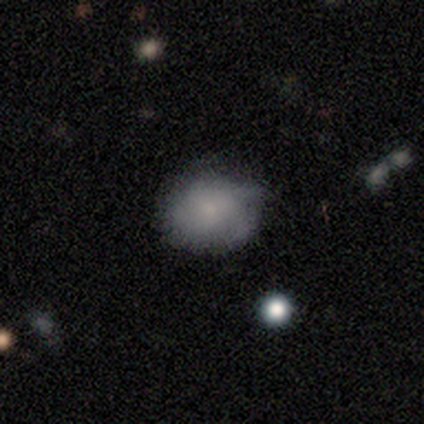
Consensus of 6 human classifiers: Morphology: type=featured or disk (50%); edge-on=no (100%); bar=no (100%); spiral arms=yes (67%); winding=tight (50%, tied with medium); arm count=3 (50%, tied with 4); bulge=small (100%); merging=none (80%).